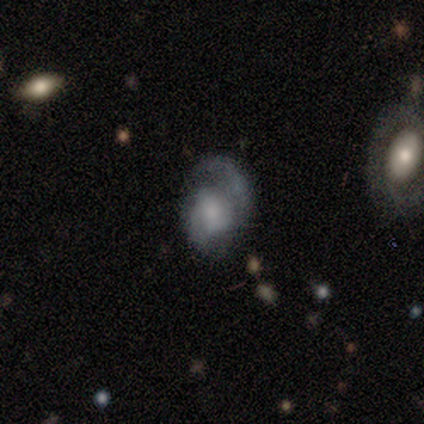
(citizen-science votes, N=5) smooth-or-featured: smooth: 40% (tied) | featured or disk: 40% (tied) | star or artifact: 20%
  how-rounded: in between: 100% | round: 0% | cigar-shaped: 0%
  merging: minor disturbance: 50% (tied) | major disturbance: 50% (tied) | none: 0% | merger: 0%